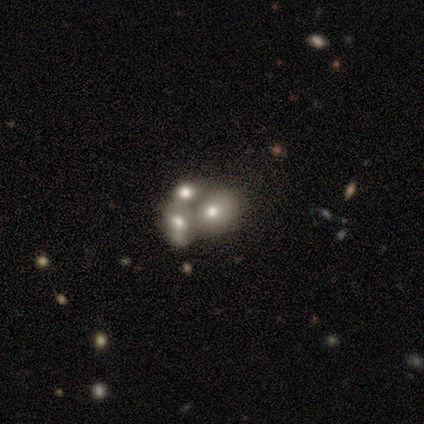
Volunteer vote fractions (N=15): A smooth galaxy with no disk features (47%) that is round (43%, tied with in between). Merging: merger (60%).